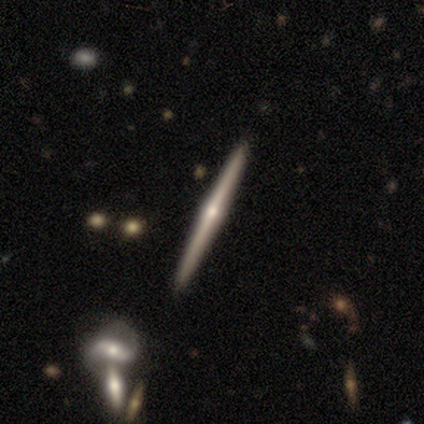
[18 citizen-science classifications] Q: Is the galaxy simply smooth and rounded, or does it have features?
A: featured or disk — 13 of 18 (72%).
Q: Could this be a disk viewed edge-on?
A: yes — 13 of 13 (100%).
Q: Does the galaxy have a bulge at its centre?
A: rounded — 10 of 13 (77%).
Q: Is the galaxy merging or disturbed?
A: none — 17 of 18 (94%).